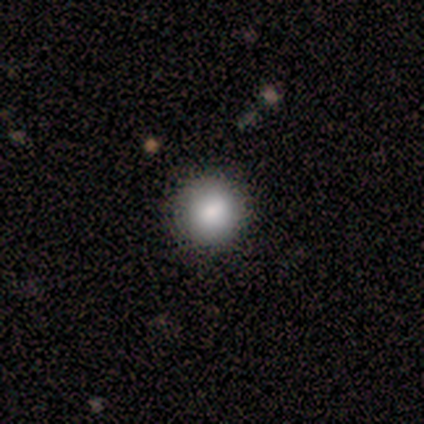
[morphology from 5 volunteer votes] type=smooth (80%); roundness=round (100%); merging=none (75%).